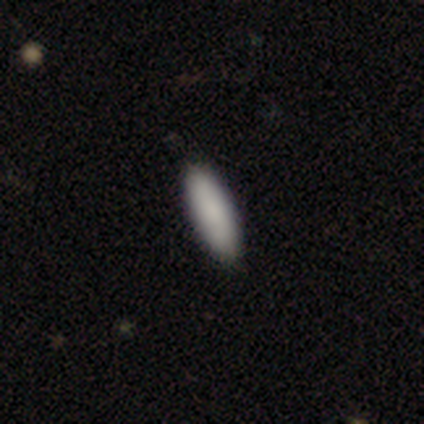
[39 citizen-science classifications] smooth-or-featured: smooth: 82% | star or artifact: 10% | featured or disk: 8%
  how-rounded: cigar-shaped: 56% | in between: 44% | round: 0%
  merging: none: 89% | minor disturbance: 9% | major disturbance: 3% | merger: 0%